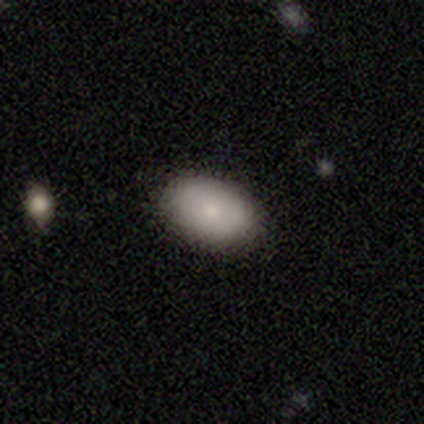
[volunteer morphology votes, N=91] Overall: smooth (81%). How rounded: in between (93%). Merging: none (92%).